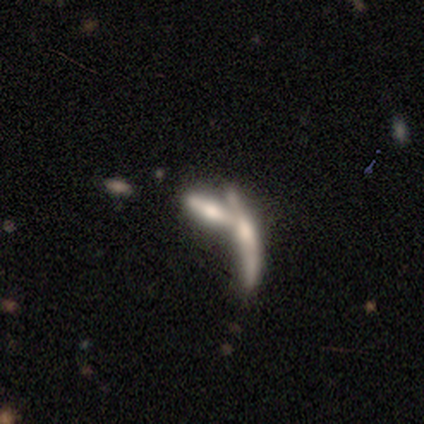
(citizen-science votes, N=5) Volunteers were most divided on "smooth or featured": featured or disk: 60%, smooth: 40%, star or artifact: 0%. More confident: edge-on bulge — rounded (100%); merging — merger (80%); edge-on disk — yes (67%).